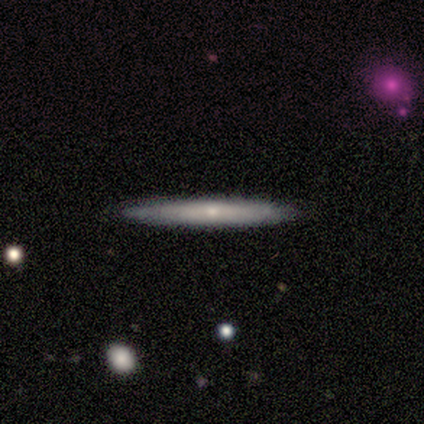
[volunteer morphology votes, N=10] type=featured or disk (60%); edge-on=yes (100%); edge-on bulge=none (67%); merging=none (100%).